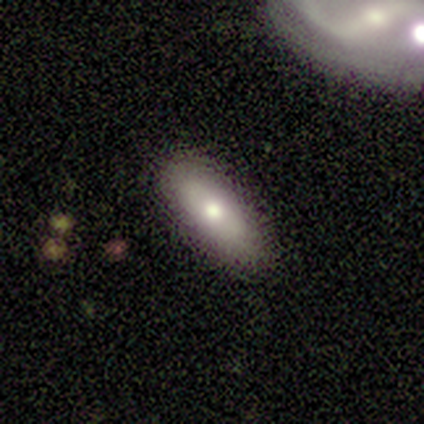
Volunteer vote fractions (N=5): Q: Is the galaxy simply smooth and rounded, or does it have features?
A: smooth — 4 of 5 (80%).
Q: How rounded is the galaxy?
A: in between — 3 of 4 (75%).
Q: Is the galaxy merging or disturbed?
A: none — 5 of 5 (100%).